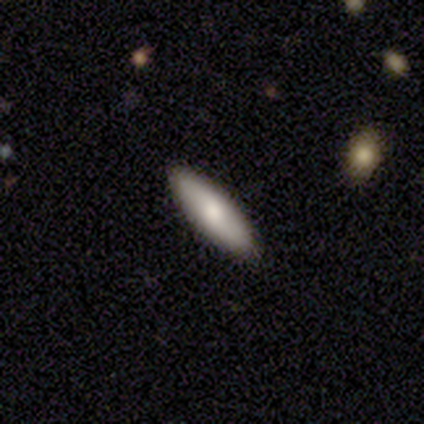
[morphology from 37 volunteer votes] smooth_or_featured: smooth (p=0.57) [alt: featured or disk p=0.24]
how_rounded: cigar-shaped (p=0.57) [alt: in between p=0.43]
merging: none (p=0.90) [alt: minor disturbance p=0.10]